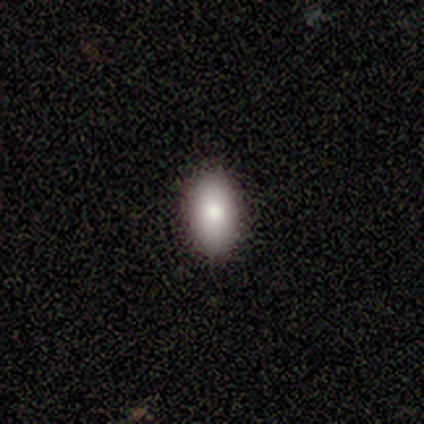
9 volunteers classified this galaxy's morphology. smooth_or_featured: smooth (p=1.00)
how_rounded: in between (p=1.00)
merging: none (p=0.78) [alt: minor disturbance p=0.22]